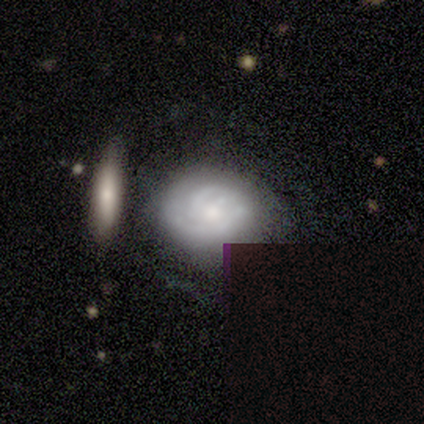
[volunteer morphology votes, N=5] Smooth or featured: featured or disk — 80% (star or artifact — 20%)
Edge-on disk: no — 100%
Bar: no — 75% (weak — 25%)
Spiral arms: yes — 75% (no — 25%)
Spiral winding: tight — 67% (loose — 33%)
Spiral arm count: can't tell — 67% (1 — 33%)
Bulge size: small — 100%
Merging: none — 25% (tied with minor disturbance — 25%; major disturbance — 25%; merger — 25%)